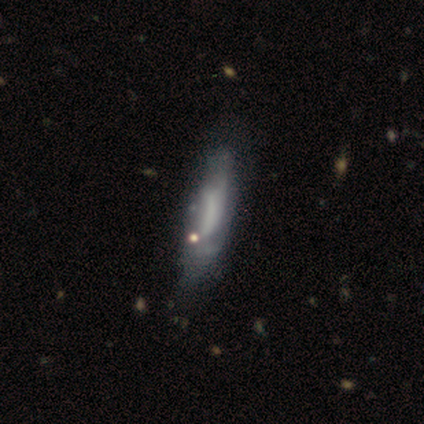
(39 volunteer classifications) smooth-or-featured: featured or disk: 51% | smooth: 36% | star or artifact: 13%
  disk-edge-on: no: 95% | yes: 5%
    bar: no: 63% | weak: 32% | strong: 5%
    has-spiral-arms: yes: 53% | no: 47%
      spiral-winding: medium: 80% | loose: 20% | tight: 0%
      spiral-arm-count: can't tell: 60% | 2: 20% | 1: 10% | 3: 10% | 4: 0% | more than 4: 0%
    bulge-size: none: 79% | moderate: 16% | small: 5% | dominant: 0% | large: 0%
  merging: minor disturbance: 32% | none: 29% | major disturbance: 9% | merger: 3%